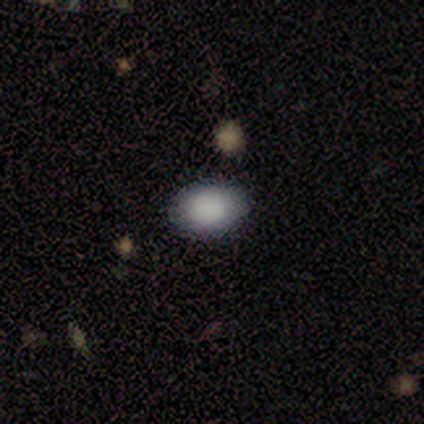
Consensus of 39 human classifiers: Smooth or featured? 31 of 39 (79%) said smooth. How rounded? 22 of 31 (71%) said in between. Merging? 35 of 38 (92%) said none.